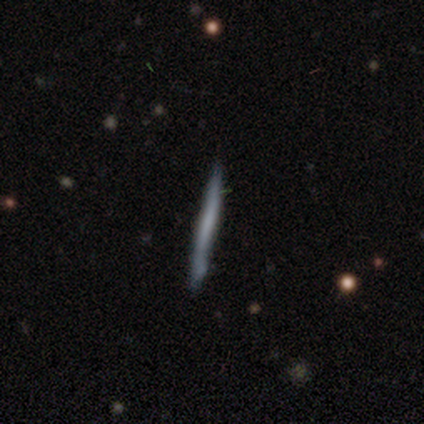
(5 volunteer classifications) Overall: smooth (40%, tied with featured or disk). How rounded: cigar-shaped (100%). Merging: none (100%).